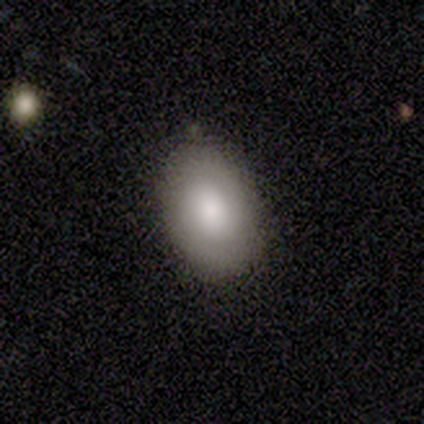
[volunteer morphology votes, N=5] This is clearly a smooth galaxy (80%). How rounded: clearly in between (100%). Merging: clearly none (100%).